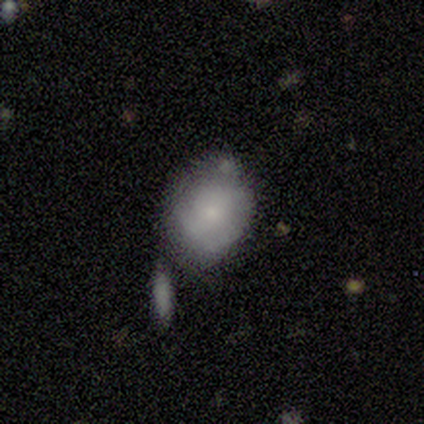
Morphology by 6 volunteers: A smooth galaxy with no disk features (83%) that is in between round and cigar-shaped (60%).

Vote fractions:
- Smooth or featured? smooth: 83% / featured or disk: 17% / star or artifact: 0%
- How rounded? in between: 60% / round: 40% / cigar-shaped: 0%
- Merging? none: 33% (tied) / minor disturbance: 33% (tied) / merger: 33% (tied) / major disturbance: 0%